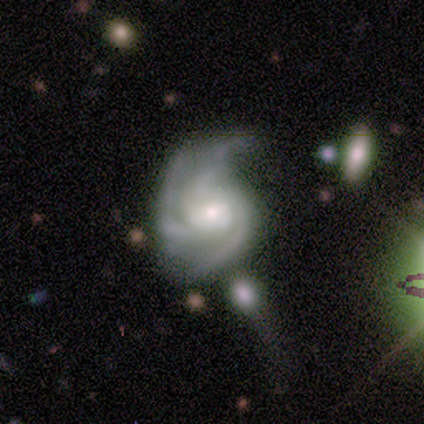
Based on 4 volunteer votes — Overall: featured or disk (100%). Edge-on disk: no (100%). Bar: weak (100%). Spiral arms: yes (100%). Spiral arm count: 3 (100%). Spiral winding: medium (50%, tied with loose). Bulge size: moderate (75%). Merging: minor disturbance (75%).